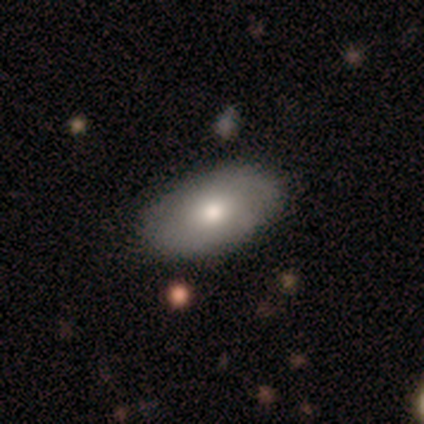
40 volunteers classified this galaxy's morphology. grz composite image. It shows a smooth galaxy with no disk features (72%) that is in between round and cigar-shaped (100%). Merging: none (89%).